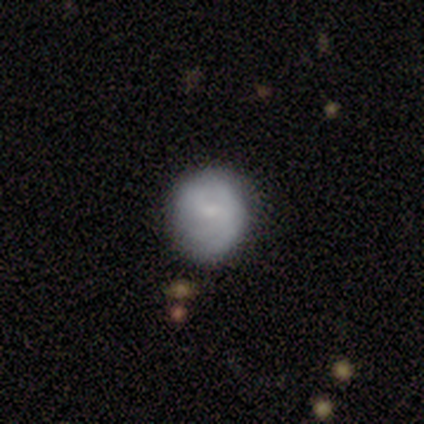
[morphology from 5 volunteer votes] smooth 60%, featured or disk 40%, star or artifact 0%. Down the decision tree: how rounded — round (100%); merging — none (80%).